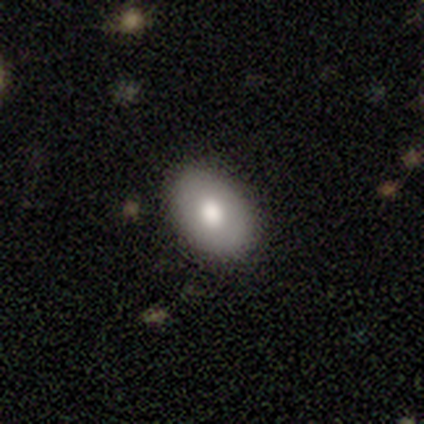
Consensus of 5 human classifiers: Overall: smooth (80%). How rounded: in between (100%). Merging: none (100%).